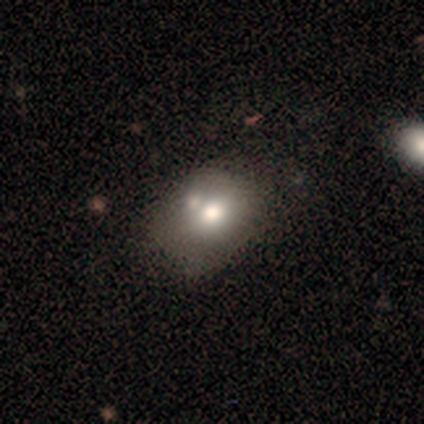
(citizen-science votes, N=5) Smooth or featured? 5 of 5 (100%) said smooth. How rounded? 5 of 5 (100%) said in between. Merging? 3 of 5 (60%) said minor disturbance.